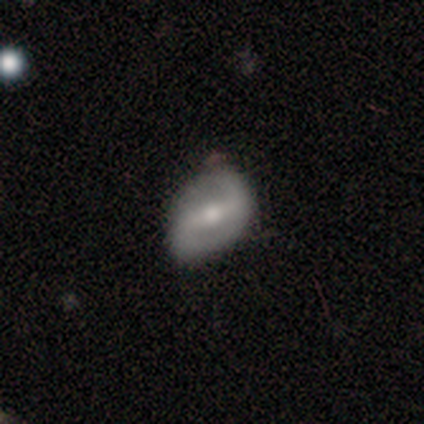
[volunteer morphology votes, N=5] type=featured or disk (100%); edge-on=no (100%); bar=strong (80%); spiral arms=yes (80%); winding=loose (100%); arm count=2 (100%); bulge=moderate (60%); merging=none (100%).